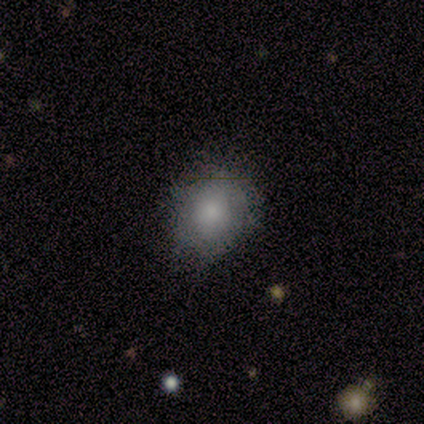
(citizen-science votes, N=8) A smooth galaxy with no disk features (62%) that is round (60%).

Vote fractions:
- Smooth or featured? smooth: 62% / star or artifact: 25% / featured or disk: 12%
- How rounded? round: 60% / in between: 40% / cigar-shaped: 0%
- Merging? none: 67% / minor disturbance: 33% / major disturbance: 0% / merger: 0%